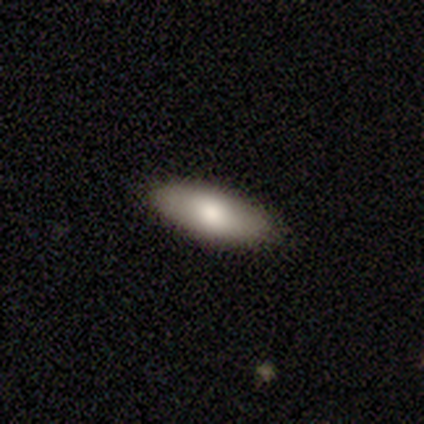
Smooth or featured? smooth (74%)
How rounded? in between (69%)
Merging? none (89%)